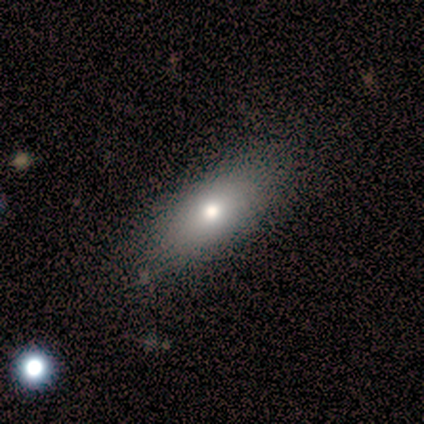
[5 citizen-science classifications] A smooth galaxy with no disk features (80%) that is in between round and cigar-shaped (50%, tied with cigar-shaped).

Vote fractions:
- Smooth or featured? smooth: 80% / featured or disk: 20% / star or artifact: 0%
- How rounded? in between: 50% (tied) / cigar-shaped: 50% (tied) / round: 0%
- Merging? none: 80% / minor disturbance: 20% / major disturbance: 0% / merger: 0%